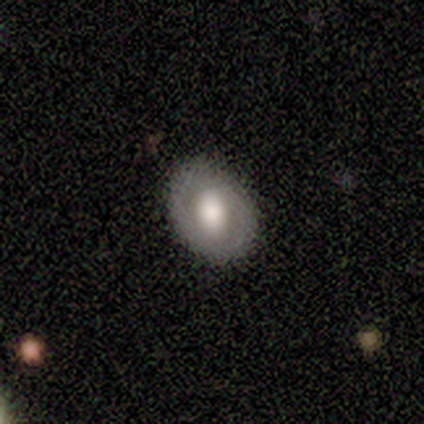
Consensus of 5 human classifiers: This is likely a smooth galaxy (60%). How rounded: likely in between (67%). Merging: clearly none (100%).